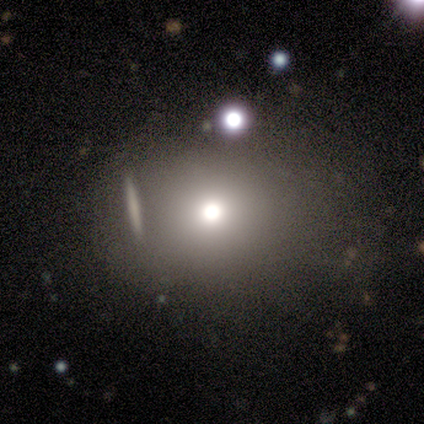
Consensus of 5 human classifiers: smooth_or_featured: smooth (p=1.00)
how_rounded: round (p=0.80) [alt: in between p=0.20]
merging: none (p=0.80) [alt: minor disturbance p=0.20]